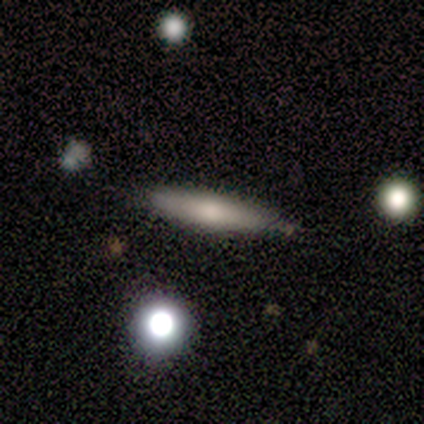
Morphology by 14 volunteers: Overall: smooth (64%; featured or disk 29%). How rounded: cigar-shaped (78%). Merging: none (92%).